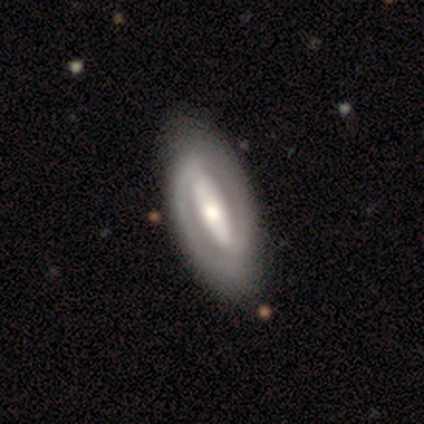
Q: Smooth or featured?
A: featured or disk (100%)
Q: Edge-on disk?
A: no (100%)
Q: Bar?
A: strong (50%); runner-up: weak (25%)
Q: Spiral arms?
A: yes (75%); runner-up: no (25%)
Q: Spiral winding?
A: loose (67%); runner-up: tight (33%)
Q: Spiral arm count?
A: 2 (67%); runner-up: can't tell (33%)
Q: Bulge size?
A: small (50%); runner-up: large (25%)
Q: Merging?
A: none (100%)